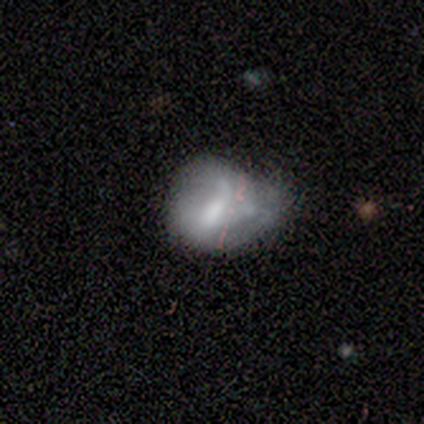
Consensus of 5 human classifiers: Morphology: type=featured or disk (80%); edge-on=no (100%); bar=weak (75%); spiral arms=yes (50%, tied with no); winding=tight (50%, tied with loose); arm count=1 (50%, tied with 2); bulge=large (50%); merging=minor disturbance (80%).